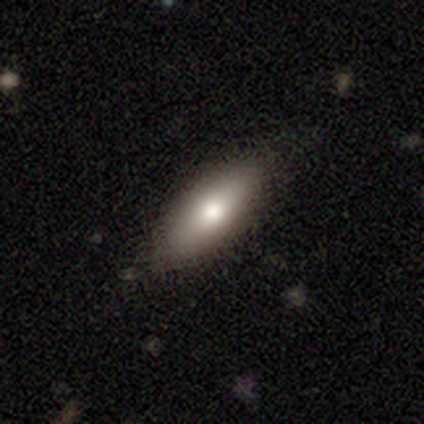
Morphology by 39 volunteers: Smooth or featured: smooth — 67% (featured or disk — 26%)
How rounded: in between — 73% (cigar-shaped — 27%)
Merging: none — 83% (minor disturbance — 14%)